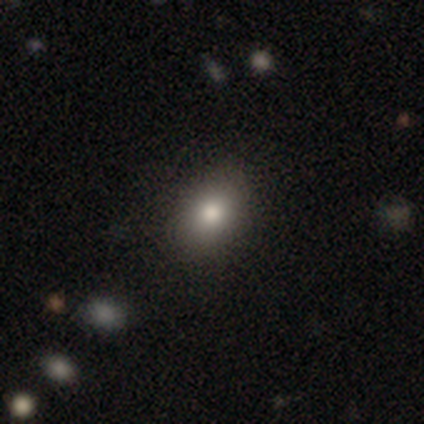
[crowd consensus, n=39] Overall: smooth (67%). How rounded: round (46%, tied with in between). Merging: none (82%).